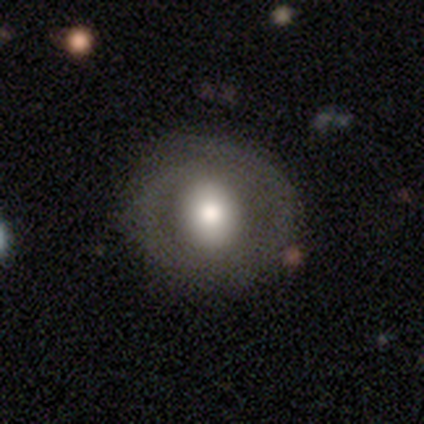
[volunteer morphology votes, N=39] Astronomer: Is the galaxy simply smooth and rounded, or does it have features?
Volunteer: smooth — 59%.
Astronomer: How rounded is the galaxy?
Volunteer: round — 78%.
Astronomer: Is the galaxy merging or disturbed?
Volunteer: none — 91%.